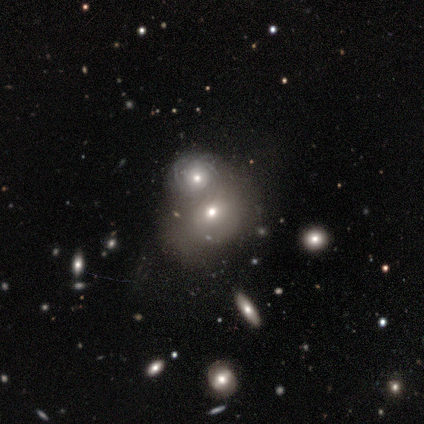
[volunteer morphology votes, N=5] A featured or disk galaxy (60%) with no bar (100%), 2 (50%, tied with 4) tight (100%) spiral arms (67%) and a small central bulge (67%).

Vote fractions:
- Smooth or featured? featured or disk: 60% / smooth: 40% / star or artifact: 0%
- Edge-on disk? no: 100% / yes: 0%
- Bar? no: 100% / strong: 0% / weak: 0%
- Spiral arms? yes: 67% / no: 33%
- Spiral winding? tight: 100% / medium: 0% / loose: 0%
- Spiral arm count? 2: 50% (tied) / 4: 50% (tied) / 1: 0% / 3: 0% / more than 4: 0% / can't tell: 0%
- Bulge size? small: 67% / moderate: 33% / dominant: 0% / large: 0% / none: 0%
- Merging? merger: 60% / minor disturbance: 40% / none: 0% / major disturbance: 0%